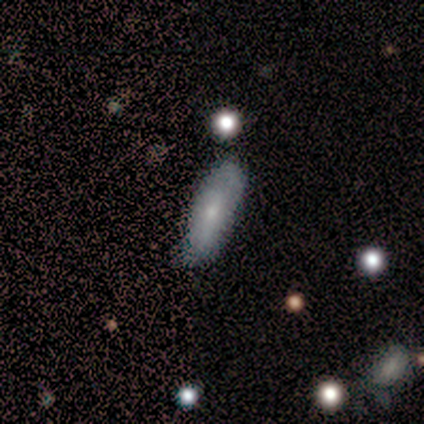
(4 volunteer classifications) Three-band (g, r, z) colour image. It shows a smooth galaxy with no disk features (75%) that is in between round and cigar-shaped (100%). Merging: none (75%).